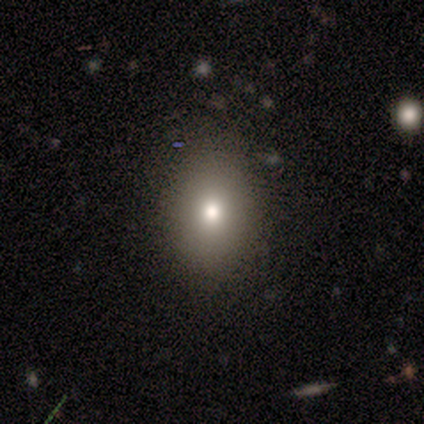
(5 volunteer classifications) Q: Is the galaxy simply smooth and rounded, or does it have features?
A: smooth — 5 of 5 (100%).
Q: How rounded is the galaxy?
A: round — 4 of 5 (80%).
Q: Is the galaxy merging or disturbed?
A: none — 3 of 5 (60%).